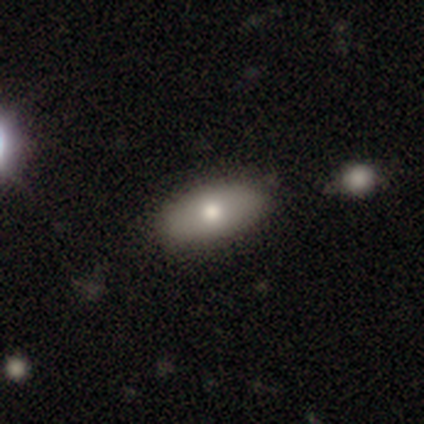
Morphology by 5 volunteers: This appears to be a smooth galaxy with no disk features (40%, tied with featured or disk) that is in between round and cigar-shaped (100%). Merging: none (75%).